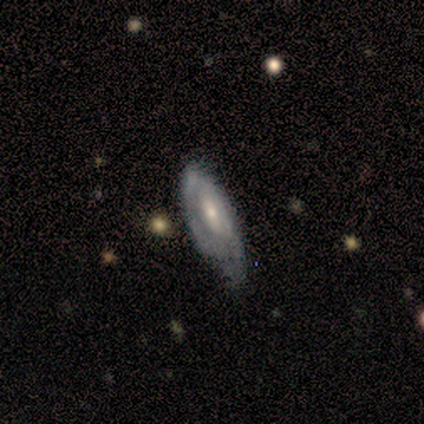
This appears to be a featured or disk galaxy (50%) with no bar (100%), tight (50%, tied with medium) spiral arms (100%) and a moderate central bulge (100%). Merging: none (100%).